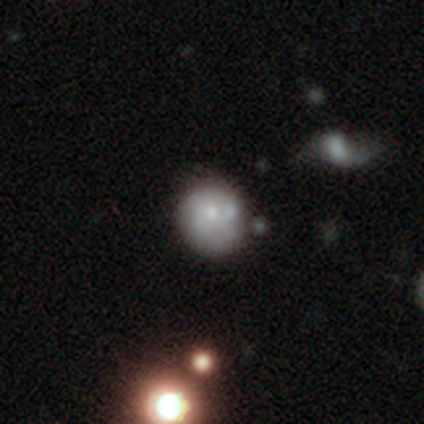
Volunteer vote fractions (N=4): smooth_or_featured: smooth (p=0.50) [tied with: featured or disk p=0.50]
how_rounded: round (p=1.00)
merging: none (p=0.75) [alt: minor disturbance p=0.25]